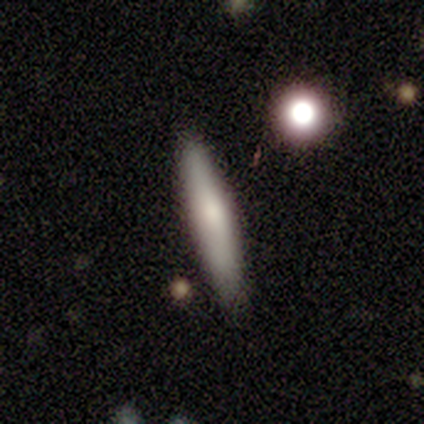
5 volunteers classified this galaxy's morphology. Smooth or featured? smooth (80%)
How rounded? cigar-shaped (100%)
Merging? none (60%)